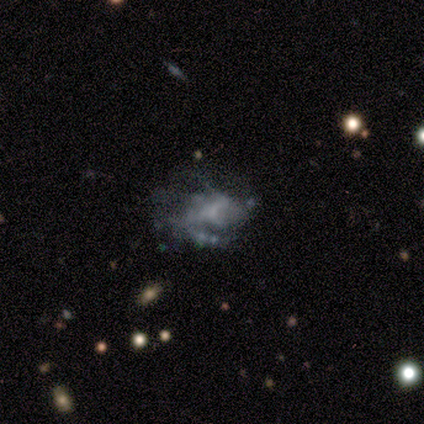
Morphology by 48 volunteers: Smooth or featured?
  - featured or disk: 79% *
  - smooth: 10%
  - star or artifact: 10%
Edge-on disk?
  - no: 100% *
  - yes: 0%
Bar?
  - no: 58% *
  - weak: 34%
  - strong: 8%
Spiral arms?
  - yes: 53% *
  - no: 47%
Spiral winding?
  - tight: 45% *
  - medium: 35%
  - loose: 20%
Spiral arm count?
  - can't tell: 35% *
  - 1: 30%
  - 2: 15%
  - 4: 10%
  - more than 4: 10%
  - 3: 0%
Bulge size?
  - none: 53% *
  - small: 32%
  - moderate: 13%
  - dominant: 3%
  - large: 0%
Merging?
  - major disturbance: 40% *
  - none: 37%
  - minor disturbance: 23%
  - merger: 0%